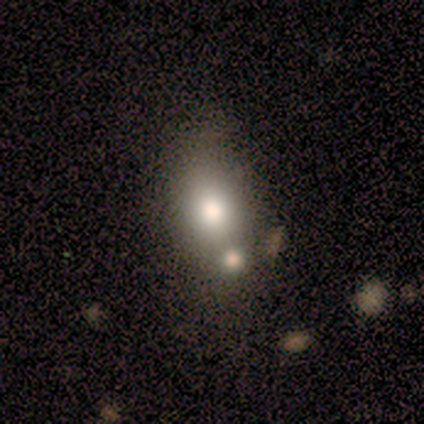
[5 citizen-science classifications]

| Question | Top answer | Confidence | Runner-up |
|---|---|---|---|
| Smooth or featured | smooth | 60% | featured or disk (40%) |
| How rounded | round | 33% | tied: in between (33%), cigar-shaped (33%) |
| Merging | merger | 60% | none (40%) |